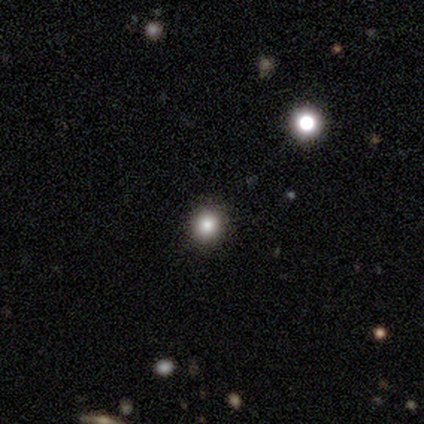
smooth 80%, star or artifact 20%, featured or disk 0%. Down the decision tree: how rounded — round (100%); merging — none (100%).